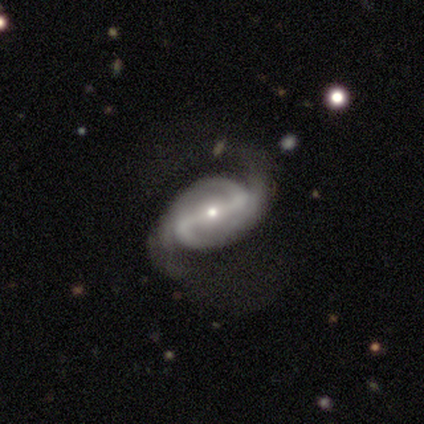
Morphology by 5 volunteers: Smooth or featured?
  - featured or disk: 80% *
  - star or artifact: 20%
  - smooth: 0%
Edge-on disk?
  - no: 100% *
  - yes: 0%
Bar?
  - strong: 100% *
  - weak: 0%
  - no: 0%
Spiral arms?
  - yes: 100% *
  - no: 0%
Spiral winding?
  - tight: 75% *
  - medium: 25%
  - loose: 0%
Spiral arm count?
  - 2: 100% *
  - 1: 0%
  - 3: 0%
  - 4: 0%
  - more than 4: 0%
  - can't tell: 0%
Bulge size?
  - small: 100% *
  - dominant: 0%
  - large: 0%
  - moderate: 0%
  - none: 0%
Merging?
  - none: 100% *
  - minor disturbance: 0%
  - major disturbance: 0%
  - merger: 0%